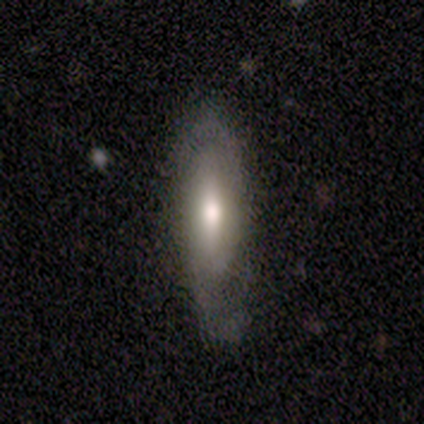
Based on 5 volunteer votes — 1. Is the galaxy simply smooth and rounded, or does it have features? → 60% featured or disk, 40% smooth, 0% star or artifact.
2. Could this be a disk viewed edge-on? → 67% yes, 33% no.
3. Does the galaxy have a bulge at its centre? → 100% rounded, 0% boxy, 0% none.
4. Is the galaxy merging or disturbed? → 60% none, 40% minor disturbance, 0% major disturbance, 0% merger.